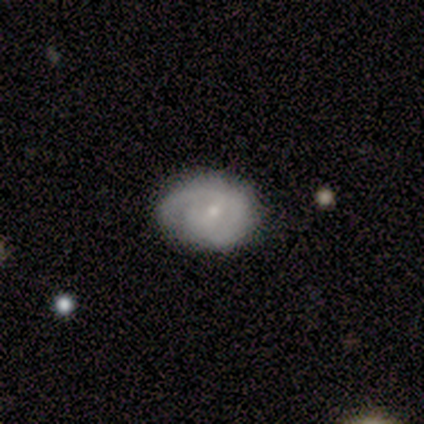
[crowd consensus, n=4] Volunteers were most divided on "smooth or featured" (2-way tie): smooth: 50%, featured or disk: 50%, star or artifact: 0%. More confident: how rounded — in between (100%); merging — none (100%).